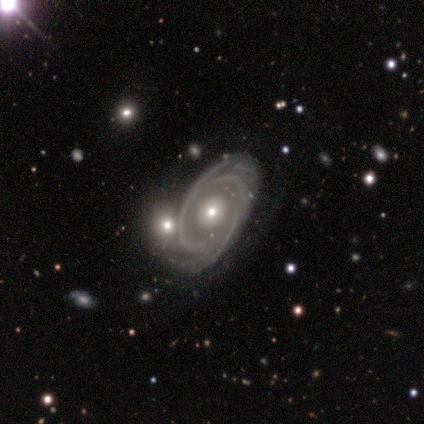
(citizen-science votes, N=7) This appears to be a featured or disk galaxy (100%) with no bar (86%), 2 (100%) tight (67%) spiral arms (86%) and a moderate central bulge (57%). Merging: none (57%).